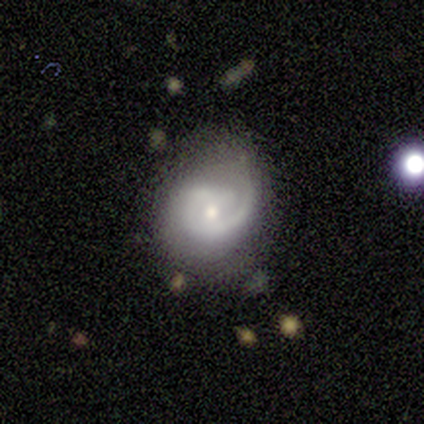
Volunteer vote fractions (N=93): smooth-or-featured: featured or disk: 82% | smooth: 14% | star or artifact: 4%
  disk-edge-on: no: 99% | yes: 1%
    bar: no: 61% | weak: 31% | strong: 8%
    has-spiral-arms: yes: 97% | no: 3%
      spiral-winding: tight: 53% | medium: 34% | loose: 12%
      spiral-arm-count: 1: 71% | 2: 23% | can't tell: 5% | 3: 0% | 4: 0% | more than 4: 0%
    bulge-size: moderate: 56% | small: 37% | large: 3% | none: 3% | dominant: 1%
  merging: none: 48% | minor disturbance: 31% | major disturbance: 17% | merger: 3%